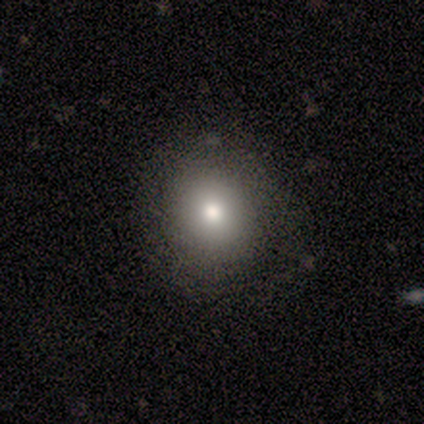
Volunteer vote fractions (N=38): This is likely a smooth galaxy (79%). How rounded: clearly round (83%). Merging: clearly none (94%).